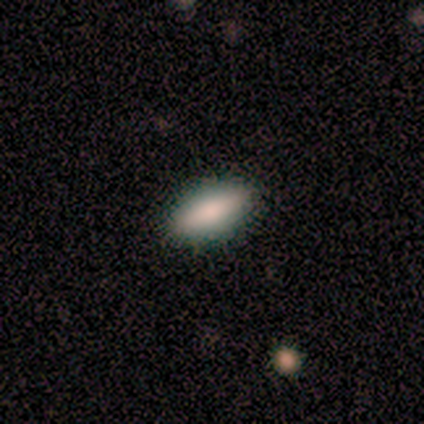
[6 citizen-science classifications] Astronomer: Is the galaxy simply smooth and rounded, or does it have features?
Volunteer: smooth — 83%.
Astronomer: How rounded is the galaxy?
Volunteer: in between — 80%.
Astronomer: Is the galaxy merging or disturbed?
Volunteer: none — 100%.